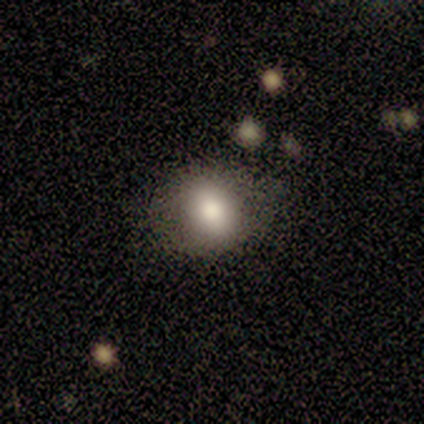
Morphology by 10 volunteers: Smooth or featured: smooth — 80% (featured or disk — 20%)
How rounded: round — 62% (in between — 38%)
Merging: none — 70% (minor disturbance — 30%)